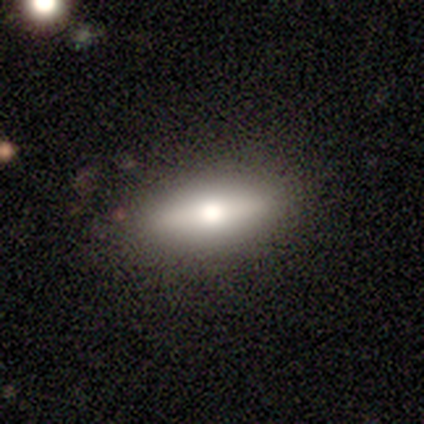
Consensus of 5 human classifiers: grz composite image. It shows a featured or disk galaxy (60%) viewed edge-on (67%) with a rounded central bulge (100%). Merging: none (80%).